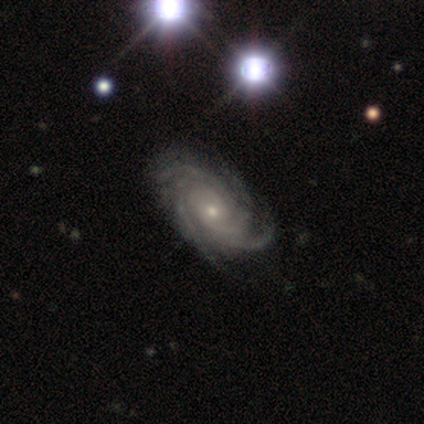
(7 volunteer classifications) smooth-or-featured: featured or disk: 71% | smooth: 14% | star or artifact: 14%
  disk-edge-on: no: 100% | yes: 0%
    bar: no: 60% | strong: 40% | weak: 0%
    has-spiral-arms: yes: 100% | no: 0%
      spiral-winding: tight: 80% | medium: 20% | loose: 0%
      spiral-arm-count: 4: 40% | 2: 20% | more than 4: 20% | can't tell: 20% | 1: 0% | 3: 0%
    bulge-size: small: 60% | moderate: 40% | dominant: 0% | large: 0% | none: 0%
  merging: none: 100% | minor disturbance: 0% | major disturbance: 0% | merger: 0%